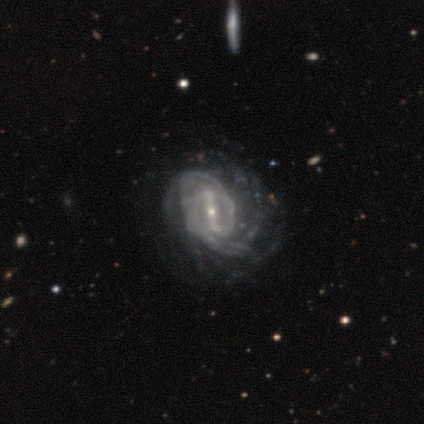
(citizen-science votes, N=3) Smooth or featured?
  - featured or disk: 100% *
  - smooth: 0%
  - star or artifact: 0%
Edge-on disk?
  - no: 67% *
  - yes: 33%
Bar?
  - weak: 100% *
  - strong: 0%
  - no: 0%
Spiral arms?
  - yes: 100% *
  - no: 0%
Spiral winding?
  - tight: 100% *
  - medium: 0%
  - loose: 0%
Spiral arm count?
  - 2: 50% * (tied)
  - can't tell: 50% * (tied)
  - 1: 0%
  - 3: 0%
  - 4: 0%
  - more than 4: 0%
Bulge size?
  - small: 100% *
  - dominant: 0%
  - large: 0%
  - moderate: 0%
  - none: 0%
Merging?
  - none: 100% *
  - minor disturbance: 0%
  - major disturbance: 0%
  - merger: 0%